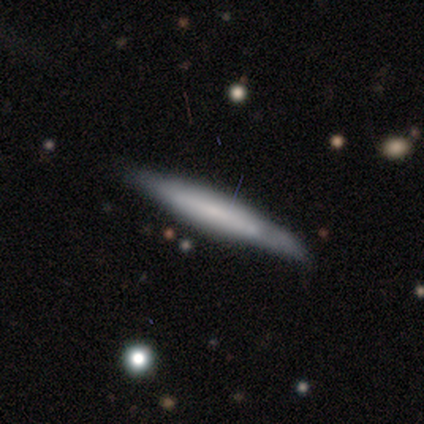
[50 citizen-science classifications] A smooth galaxy with no disk features (50%) that is cigar-shaped (92%). Merging: none (83%).